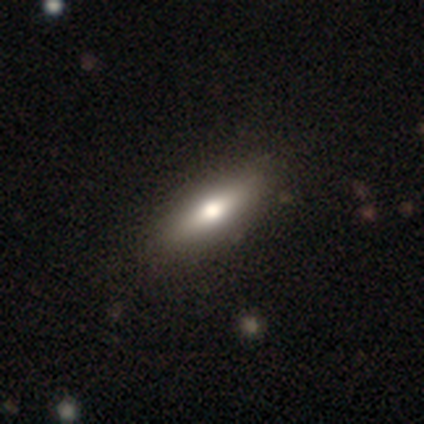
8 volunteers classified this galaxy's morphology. Smooth or featured? featured or disk (50%)
Edge-on disk? yes (75%)
Edge-on bulge? rounded (100%)
Merging? none (86%)